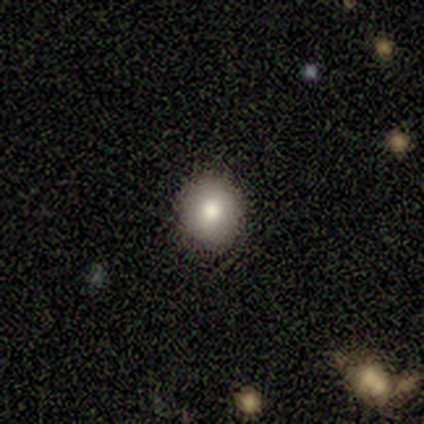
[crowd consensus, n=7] smooth_or_featured: smooth (p=0.86) [alt: star or artifact p=0.14]
how_rounded: round (p=1.00)
merging: none (p=1.00)